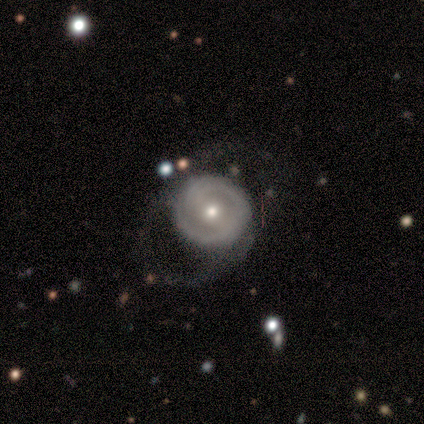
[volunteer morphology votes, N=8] A featured or disk galaxy (75%) with no bar (67%), 2 (33%, tied with 3 and can't tell) tight (100%) spiral arms (50%, tied with no) and a moderate central bulge (50%, tied with small).

Vote fractions:
- Smooth or featured? featured or disk: 75% / smooth: 25% / star or artifact: 0%
- Edge-on disk? no: 100% / yes: 0%
- Bar? no: 67% / strong: 17% / weak: 17%
- Spiral arms? yes: 50% (tied) / no: 50% (tied)
- Spiral winding? tight: 100% / medium: 0% / loose: 0%
- Spiral arm count? 2: 33% (tied) / 3: 33% (tied) / can't tell: 33% (tied) / 1: 0% / 4: 0% / more than 4: 0%
- Bulge size? moderate: 50% (tied) / small: 50% (tied) / dominant: 0% / large: 0% / none: 0%
- Merging? none: 75% / minor disturbance: 12% / major disturbance: 12% / merger: 0%